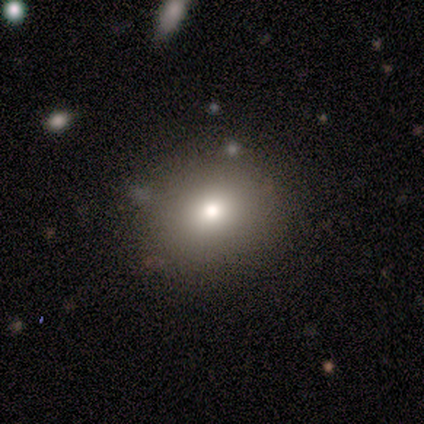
Morphology: type=smooth (75%); roundness=round (67%); merging=none (100%).